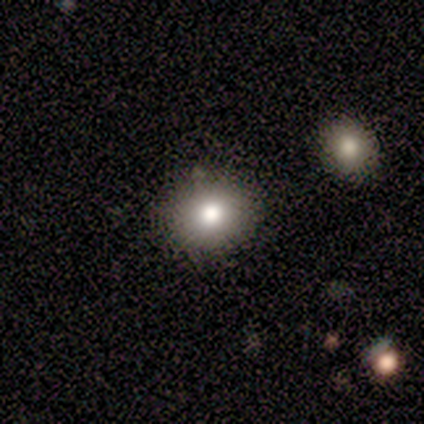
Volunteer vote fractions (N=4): smooth 100%, featured or disk 0%, star or artifact 0%. Down the decision tree: how rounded — round (50%, tied with in between); merging — none (75%).